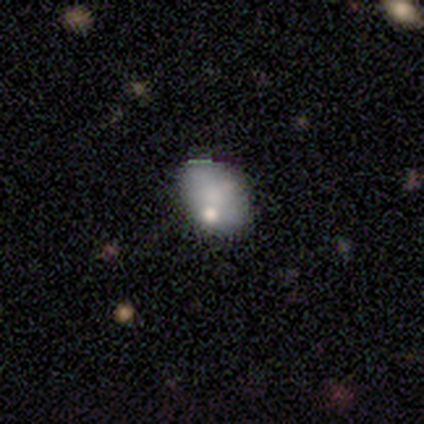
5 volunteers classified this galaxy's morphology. smooth_or_featured: smooth (p=0.60) [alt: featured or disk p=0.20]
how_rounded: in between (p=1.00)
merging: none (p=0.75) [alt: major disturbance p=0.25]